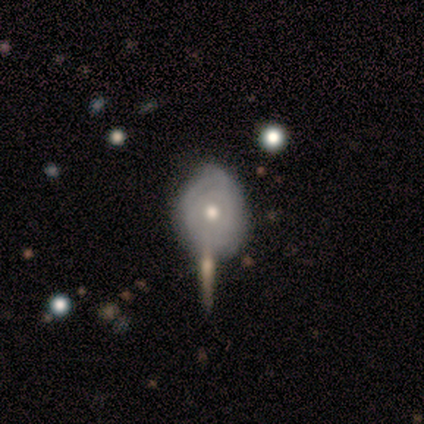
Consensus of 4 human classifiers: A featured or disk galaxy (75%) with no bar (100%), 3 (50%, tied with can't tell) tight (50%, tied with medium) spiral arms (67%) and a moderate central bulge (100%).

Vote fractions:
- Smooth or featured? featured or disk: 75% / smooth: 25% / star or artifact: 0%
- Edge-on disk? no: 100% / yes: 0%
- Bar? no: 100% / strong: 0% / weak: 0%
- Spiral arms? yes: 67% / no: 33%
- Spiral winding? tight: 50% (tied) / medium: 50% (tied) / loose: 0%
- Spiral arm count? 3: 50% (tied) / can't tell: 50% (tied) / 1: 0% / 2: 0% / 4: 0% / more than 4: 0%
- Bulge size? moderate: 100% / dominant: 0% / large: 0% / small: 0% / none: 0%
- Merging? none: 75% / minor disturbance: 25% / major disturbance: 0% / merger: 0%